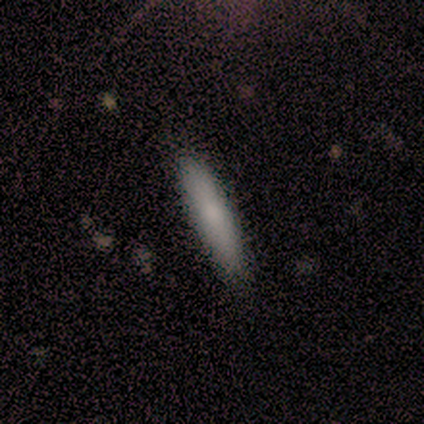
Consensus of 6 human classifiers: Smooth or featured: smooth — 83% (featured or disk — 17%)
How rounded: cigar-shaped — 100%
Merging: none — 100%